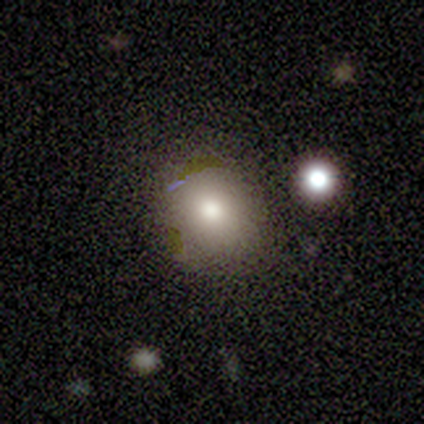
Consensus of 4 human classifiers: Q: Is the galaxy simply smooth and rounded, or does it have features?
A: smooth — 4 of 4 (100%).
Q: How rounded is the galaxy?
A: round — 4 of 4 (100%).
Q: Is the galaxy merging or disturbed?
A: none — 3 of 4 (75%).